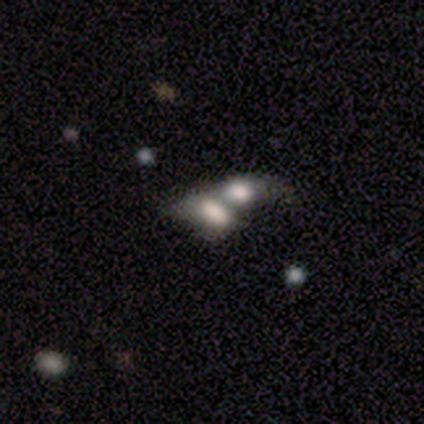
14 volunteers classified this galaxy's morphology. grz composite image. It shows a smooth galaxy with no disk features (57%) that is in between round and cigar-shaped (100%). Merging: merger (100%).